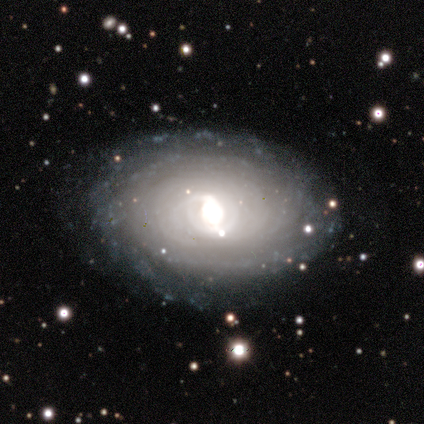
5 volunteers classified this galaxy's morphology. This is clearly a featured or disk galaxy (100%). It is clearly not viewed edge-on (100%). Bar: likely weak (60%). Spiral arm pattern: clearly yes (80%). Spiral arm count: clearly can't tell (100%). Spiral winding: clearly tight (100%). Central bulge: likely large (60%). Merging: clearly none (80%).